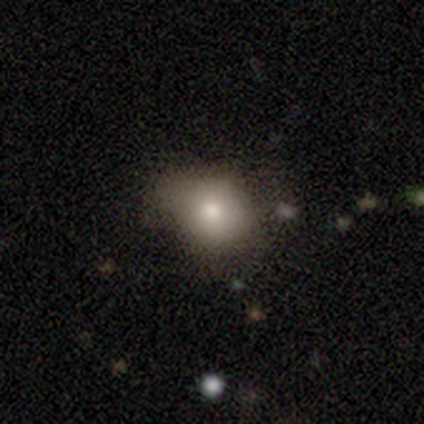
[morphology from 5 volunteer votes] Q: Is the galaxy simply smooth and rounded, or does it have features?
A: smooth — 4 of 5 (80%).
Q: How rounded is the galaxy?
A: round — 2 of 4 (50%, tied with in between).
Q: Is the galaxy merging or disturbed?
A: none — 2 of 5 (40%, tied with minor disturbance).